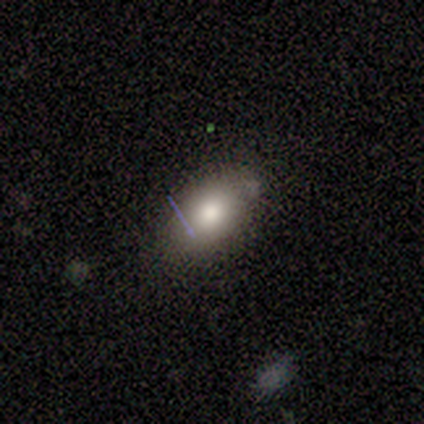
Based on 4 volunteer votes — Morphology: type=smooth (100%); roundness=in between (100%); merging=none (100%).